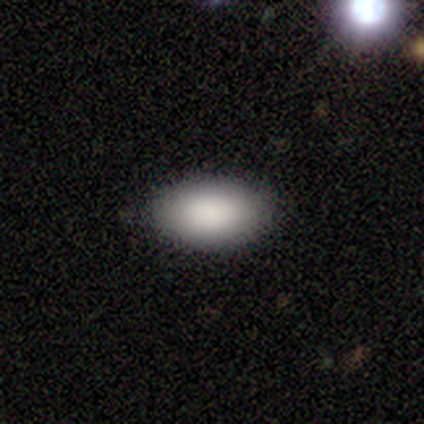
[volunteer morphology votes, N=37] smooth-or-featured: smooth: 89% | featured or disk: 8% | star or artifact: 3%
  how-rounded: in between: 97% | round: 3% | cigar-shaped: 0%
  merging: none: 83% | minor disturbance: 17% | major disturbance: 0% | merger: 0%